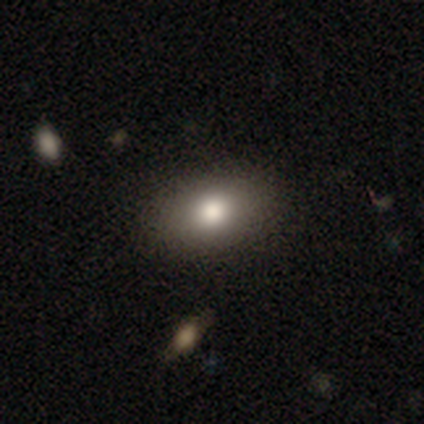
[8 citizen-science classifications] Overall: smooth (88%). How rounded: in between (86%). Merging: none (88%).